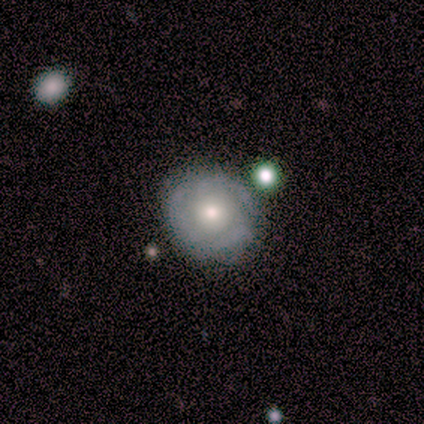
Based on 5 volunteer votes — Q: Smooth or featured?
A: featured or disk (80%); runner-up: smooth (20%)
Q: Edge-on disk?
A: no (100%)
Q: Bar?
A: no (75%); runner-up: weak (25%)
Q: Spiral arms?
A: yes (75%); runner-up: no (25%)
Q: Spiral winding?
A: tight (33%); tied with: medium (33%); loose (33%)
Q: Spiral arm count?
A: 1 (33%); tied with: 2 (33%); can't tell (33%)
Q: Bulge size?
A: moderate (75%); runner-up: small (25%)
Q: Merging?
A: minor disturbance (60%); runner-up: none (40%)